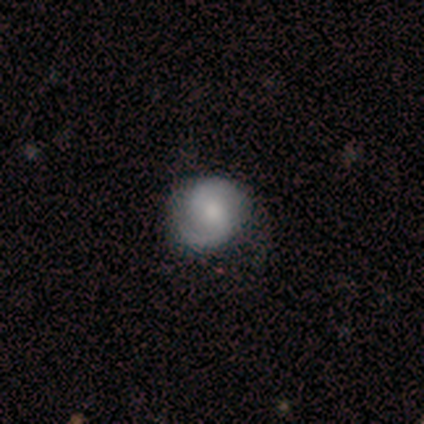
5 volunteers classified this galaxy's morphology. A featured or disk galaxy (80%) with no bar (50%), 2 (75%) medium (50%) spiral arms (100%) and a small central bulge (75%). Merging: none (80%).